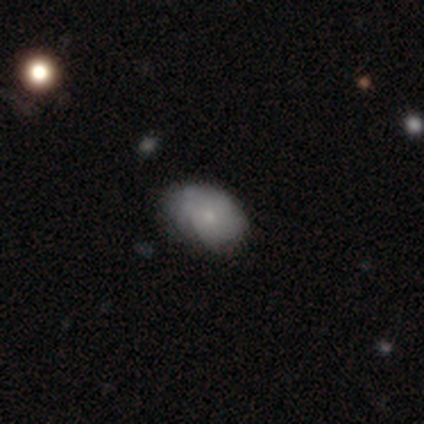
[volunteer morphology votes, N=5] Overall: smooth (80%). How rounded: in between (100%). Merging: minor disturbance (75%).